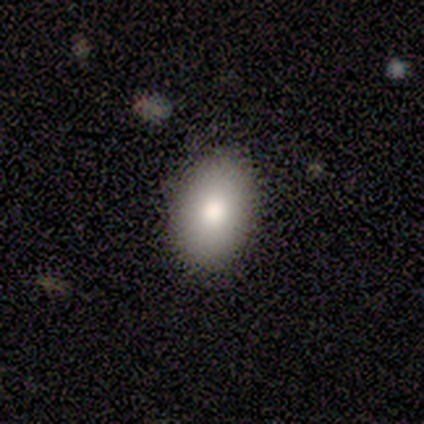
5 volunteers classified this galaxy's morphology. smooth_or_featured: smooth (p=0.80) [alt: featured or disk p=0.20]
how_rounded: in between (p=0.75) [alt: round p=0.25]
merging: none (p=1.00)